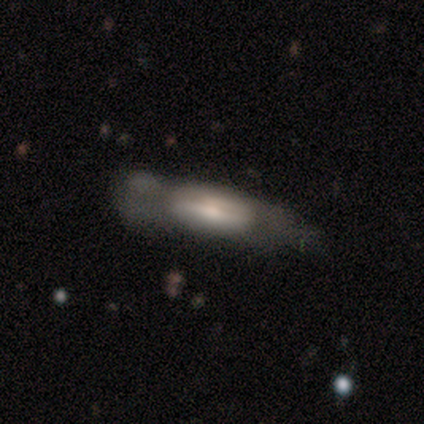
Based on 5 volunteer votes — smooth-or-featured: featured or disk: 60% | smooth: 40% | star or artifact: 0%
  disk-edge-on: yes: 67% | no: 33%
    edge-on-bulge: rounded: 100% | boxy: 0% | none: 0%
  merging: none: 40% | minor disturbance: 20% | major disturbance: 20% | merger: 20%